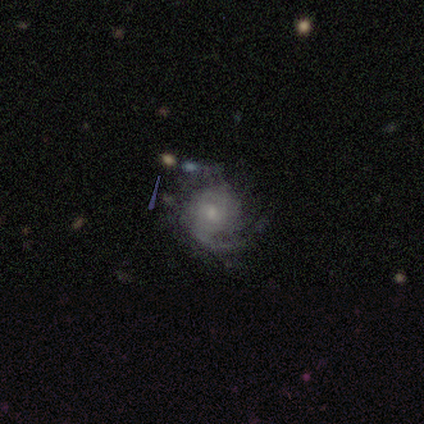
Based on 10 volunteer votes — A featured or disk galaxy (90%) with no bar (67%), tight (78%) spiral arms (100%) and a small central bulge (89%).

Vote fractions:
- Smooth or featured? featured or disk: 90% / smooth: 10% / star or artifact: 0%
- Edge-on disk? no: 100% / yes: 0%
- Bar? no: 67% / weak: 33% / strong: 0%
- Spiral arms? yes: 100% / no: 0%
- Spiral winding? tight: 78% / medium: 22% / loose: 0%
- Spiral arm count? can't tell: 33% / 1: 22% / 2: 22% / 3: 11% / more than 4: 11% / 4: 0%
- Bulge size? small: 89% / moderate: 11% / dominant: 0% / large: 0% / none: 0%
- Merging? none: 70% / minor disturbance: 20% / major disturbance: 10% / merger: 0%